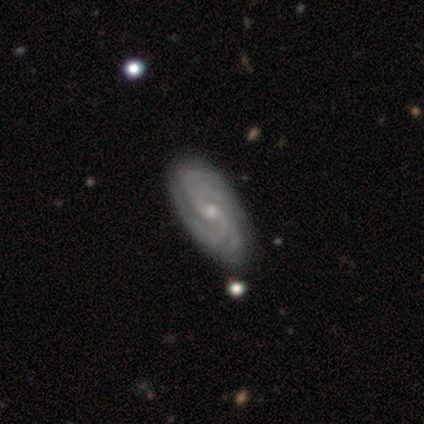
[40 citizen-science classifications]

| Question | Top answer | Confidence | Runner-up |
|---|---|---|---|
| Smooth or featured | featured or disk | 98% | star or artifact (2%) |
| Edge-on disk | no | 97% | yes (3%) |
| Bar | no | 47% | weak (45%) |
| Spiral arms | yes | 100% | — |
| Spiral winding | tight | 45% | medium (42%) |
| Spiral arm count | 4 | 42% | 2 (34%) |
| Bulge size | small | 66% | moderate (32%) |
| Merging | none | 62% | minor disturbance (3%) |